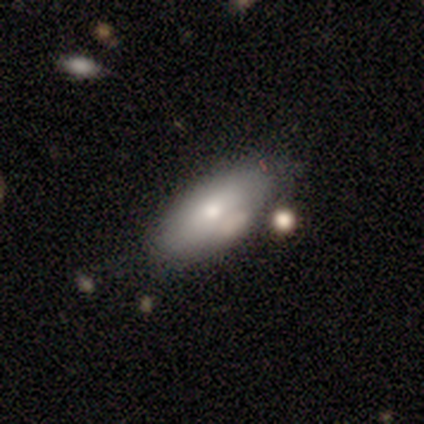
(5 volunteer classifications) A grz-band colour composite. It shows a smooth galaxy with no disk features (80%) that is in between round and cigar-shaped (100%). Merging: none (75%).